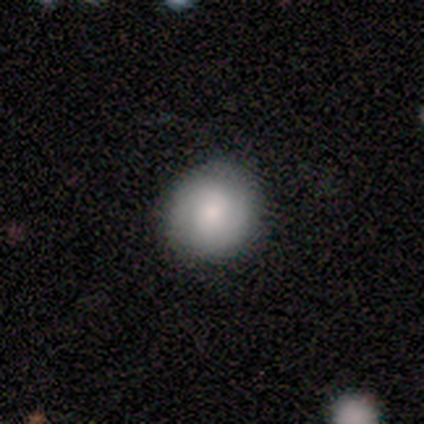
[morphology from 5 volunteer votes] This is clearly a smooth galaxy (100%). How rounded: clearly round (100%). Merging: clearly none (100%).